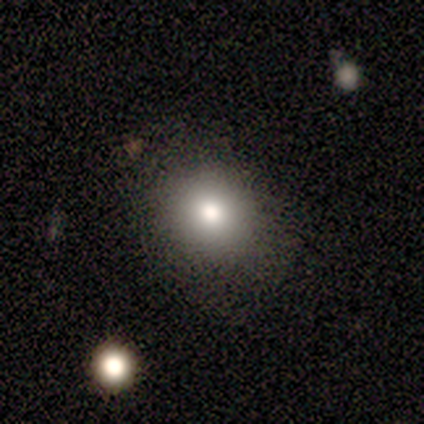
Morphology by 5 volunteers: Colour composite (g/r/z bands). It shows a smooth galaxy with no disk features (80%) that is round (100%). Merging: none (100%).